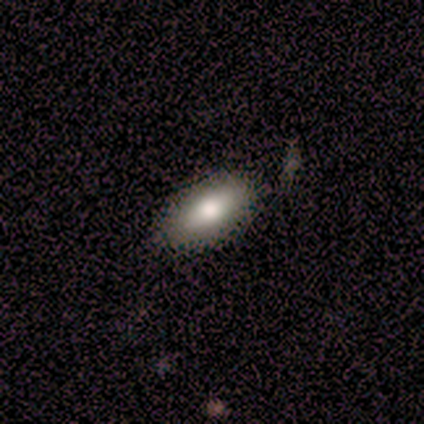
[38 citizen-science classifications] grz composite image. It shows a smooth galaxy with no disk features (82%) that is in between round and cigar-shaped (87%). Merging: none (86%).